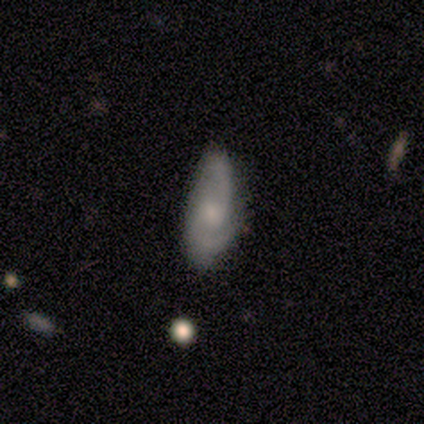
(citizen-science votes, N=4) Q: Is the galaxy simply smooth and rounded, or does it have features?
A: featured or disk — 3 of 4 (75%).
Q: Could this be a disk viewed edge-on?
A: no — 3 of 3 (100%).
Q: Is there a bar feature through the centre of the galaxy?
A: weak — 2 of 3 (67%).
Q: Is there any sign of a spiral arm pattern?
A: yes — 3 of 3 (100%).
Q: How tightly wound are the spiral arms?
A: tight — 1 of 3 (33%, tied with medium and loose).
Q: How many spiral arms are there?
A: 3 — 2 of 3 (67%).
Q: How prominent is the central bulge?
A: large — 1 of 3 (33%, tied with moderate and small).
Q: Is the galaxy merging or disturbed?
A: none — 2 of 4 (50%).